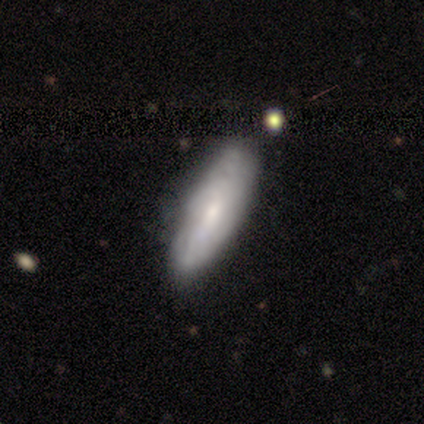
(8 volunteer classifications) Smooth or featured? smooth (50%, tied with featured or disk)
How rounded? cigar-shaped (75%)
Merging? none (88%)